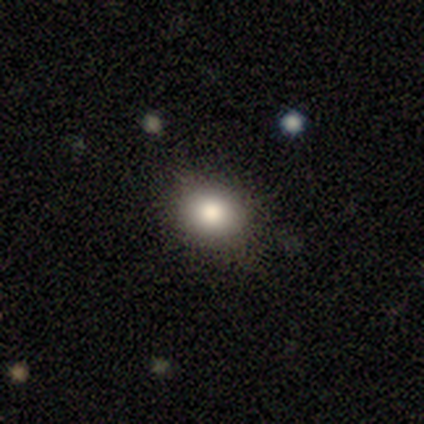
Volunteers were most divided on "merging": none: 60%, minor disturbance: 20%, major disturbance: 20%, merger: 0%. More confident: smooth or featured — smooth (100%); how rounded — round (80%).